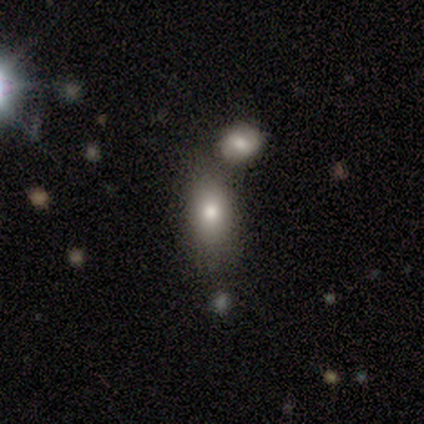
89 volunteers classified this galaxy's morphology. Smooth or featured: smooth — 74% (featured or disk — 13%)
How rounded: in between — 91% (cigar-shaped — 6%)
Merging: none — 55% (merger — 28%)